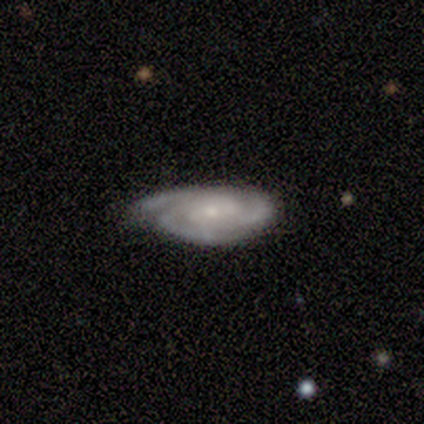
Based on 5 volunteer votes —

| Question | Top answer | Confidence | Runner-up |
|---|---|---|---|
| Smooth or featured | featured or disk | 100% | — |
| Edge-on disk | no | 80% | yes (20%) |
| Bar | no | 75% | weak (25%) |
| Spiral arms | yes | 100% | — |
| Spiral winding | tight | 50% | tied: medium (50%) |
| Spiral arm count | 3 | 100% | — |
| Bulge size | moderate | 50% | tied: small (50%) |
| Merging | minor disturbance | 80% | none (20%) |